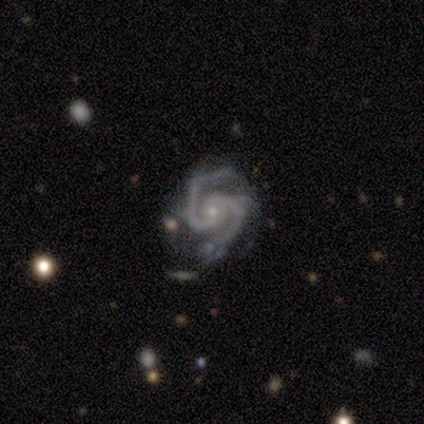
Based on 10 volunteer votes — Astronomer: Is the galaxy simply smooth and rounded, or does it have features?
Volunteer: featured or disk — 100%.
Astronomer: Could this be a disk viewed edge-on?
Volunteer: no — 100%.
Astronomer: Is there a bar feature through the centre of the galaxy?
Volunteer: no — 50% (runner-up: weak, 40%).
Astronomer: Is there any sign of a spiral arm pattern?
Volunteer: yes — 100%.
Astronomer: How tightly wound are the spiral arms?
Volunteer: tight — 50% (runner-up: medium, 40%).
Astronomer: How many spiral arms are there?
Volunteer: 2 — 100%.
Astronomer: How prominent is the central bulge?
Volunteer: small — 80%.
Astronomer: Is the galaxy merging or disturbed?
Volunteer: none — 50% (runner-up: minor disturbance, 40%).